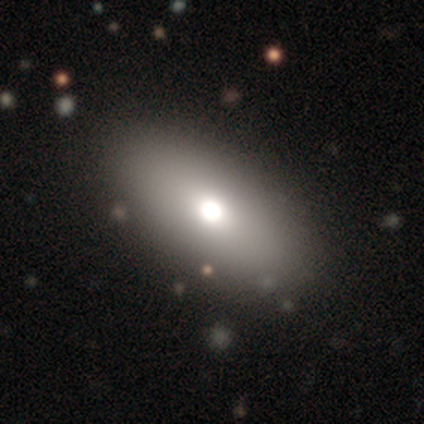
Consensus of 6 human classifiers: Morphology: type=smooth (50%); roundness=in between (67%); merging=none (100%).